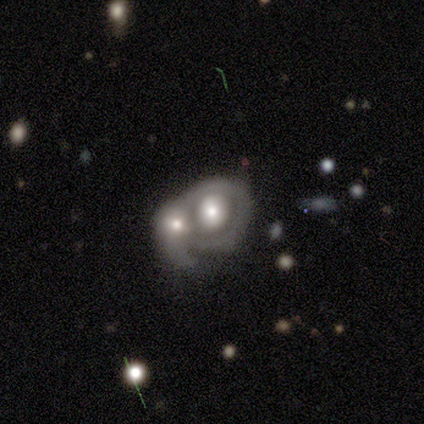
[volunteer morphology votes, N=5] Overall: featured or disk (60%; smooth 40%). Edge-on disk: no (100%). Bar: no (100%). Spiral arms: no (67%; yes 33%). Bulge size: moderate (67%; large 33%). Merging: merger (80%).